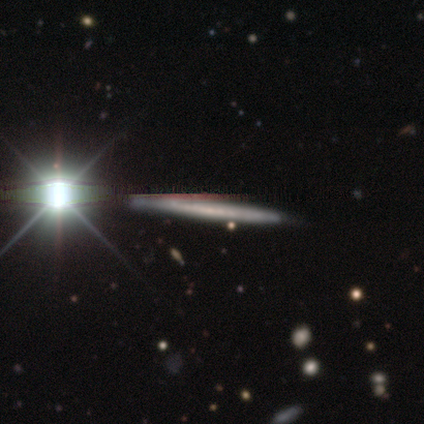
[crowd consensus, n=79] Smooth or featured? featured or disk (47%)
Edge-on disk? yes (92%)
Edge-on bulge? none (85%)
Merging? none (48%)